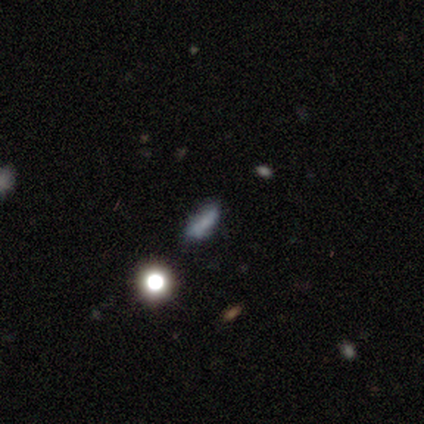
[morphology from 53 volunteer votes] A smooth galaxy with no disk features (68%) that is in between round and cigar-shaped (69%).

Vote fractions:
- Smooth or featured? smooth: 68% / featured or disk: 19% / star or artifact: 13%
- How rounded? in between: 69% / cigar-shaped: 19% / round: 11%
- Merging? none: 57% / minor disturbance: 33% / major disturbance: 9% / merger: 2%